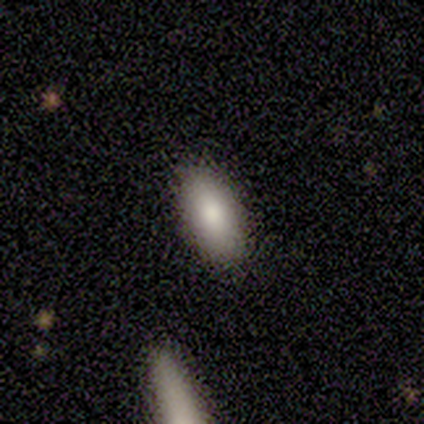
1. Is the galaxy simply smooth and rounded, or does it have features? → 60% smooth, 40% featured or disk, 0% star or artifact.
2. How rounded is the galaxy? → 100% in between, 0% round, 0% cigar-shaped.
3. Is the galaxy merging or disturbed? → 80% none, 20% minor disturbance, 0% major disturbance, 0% merger.